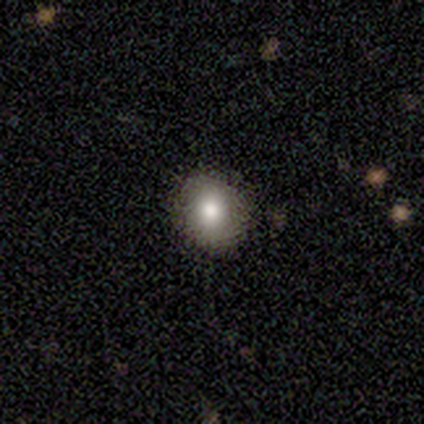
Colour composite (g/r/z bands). It shows a smooth galaxy with no disk features (100%) that is round (100%). Merging: none (100%).